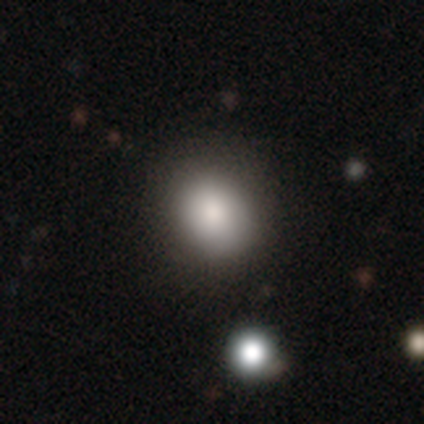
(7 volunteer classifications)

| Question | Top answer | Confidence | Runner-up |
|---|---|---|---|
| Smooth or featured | smooth | 86% | star or artifact (14%) |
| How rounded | round | 50% | tied: in between (50%) |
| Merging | none | 100% | — |